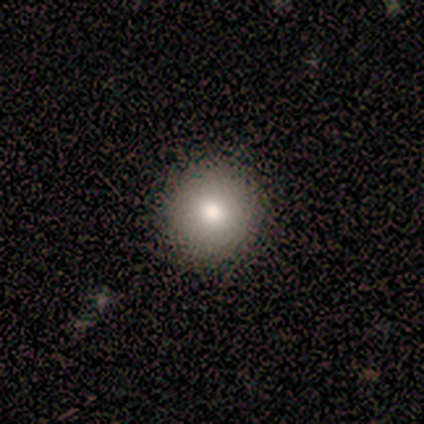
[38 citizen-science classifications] Smooth or featured? 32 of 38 (84%) said smooth. How rounded? 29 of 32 (91%) said round. Merging? 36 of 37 (97%) said none.